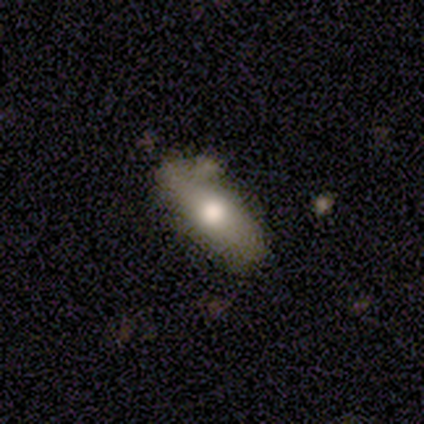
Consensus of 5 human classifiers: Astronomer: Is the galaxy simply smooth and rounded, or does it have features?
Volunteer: smooth — 100%.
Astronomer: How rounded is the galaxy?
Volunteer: in between — 80%.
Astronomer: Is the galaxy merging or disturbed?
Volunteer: none — 60%.